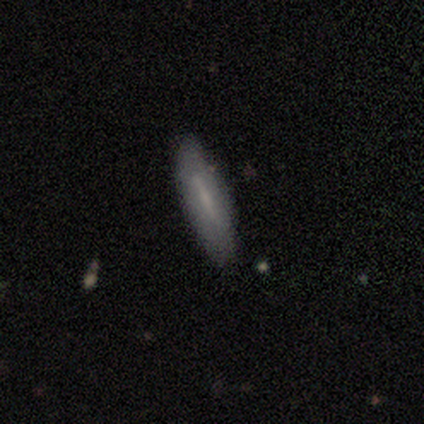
smooth 80%, featured or disk 20%, star or artifact 0%. Down the decision tree: how rounded — cigar-shaped (75%); merging — none (100%).